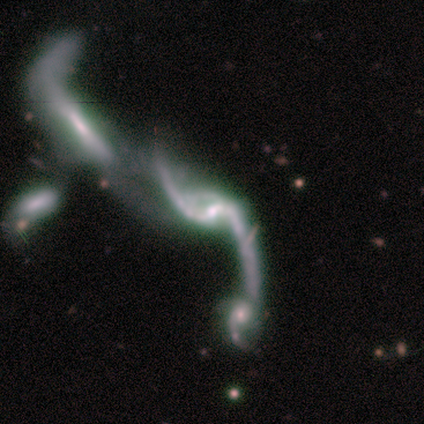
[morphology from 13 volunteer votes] type=featured or disk (92%); edge-on=no (100%); bar=no (50%); spiral arms=yes (92%); winding=loose (100%); arm count=2 (91%); bulge=small (42%); merging=merger (46%).